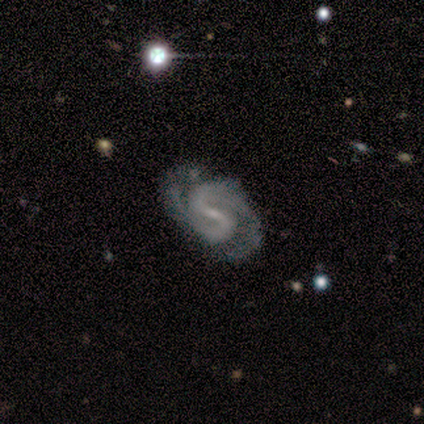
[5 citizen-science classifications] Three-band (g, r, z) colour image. It shows a featured or disk galaxy (100%) with a weak bar (80%), 2 (100%) medium (60%) spiral arms (100%) and a small central bulge (80%). Merging: none (100%).